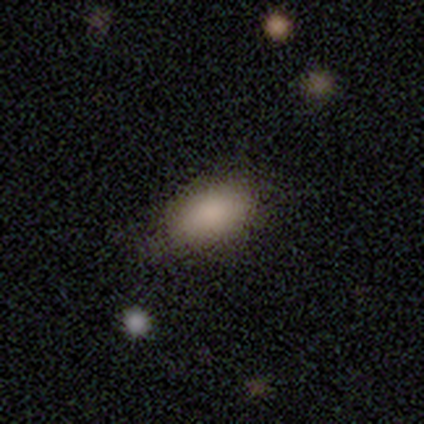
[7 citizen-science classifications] Volunteers were most divided on "merging": none: 57%, minor disturbance: 43%, major disturbance: 0%, merger: 0%. More confident: smooth or featured — smooth (100%); how rounded — in between (100%).